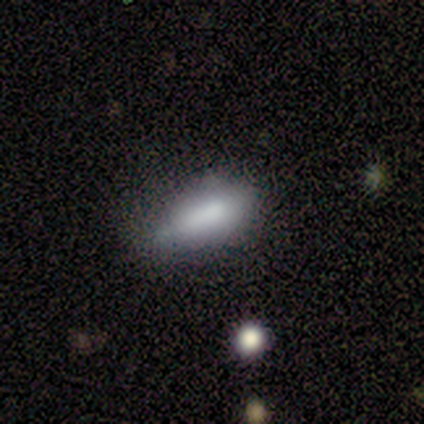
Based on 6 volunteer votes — Smooth or featured? 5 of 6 (83%) said smooth. How rounded? 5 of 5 (100%) said in between. Merging? 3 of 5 (60%) said minor disturbance.